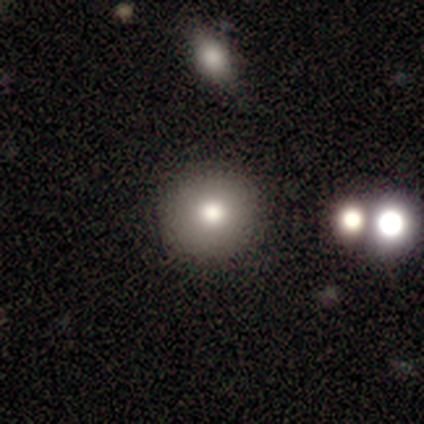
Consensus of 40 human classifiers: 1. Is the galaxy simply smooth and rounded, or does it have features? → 80% smooth, 12% featured or disk, 8% star or artifact.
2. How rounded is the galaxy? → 100% round, 0% in between, 0% cigar-shaped.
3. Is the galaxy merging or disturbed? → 86% none, 11% minor disturbance, 3% major disturbance, 0% merger.